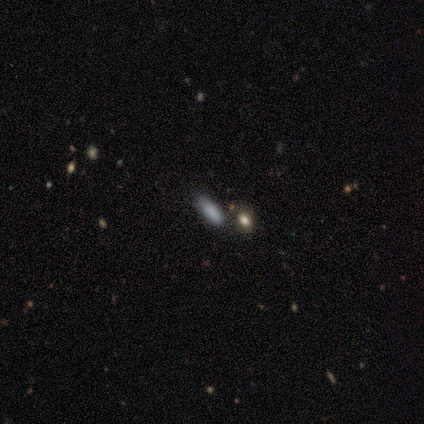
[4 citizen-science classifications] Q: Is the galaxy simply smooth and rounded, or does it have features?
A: smooth — 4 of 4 (100%).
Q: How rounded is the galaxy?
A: in between — 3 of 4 (75%).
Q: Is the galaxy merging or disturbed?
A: none — 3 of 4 (75%).